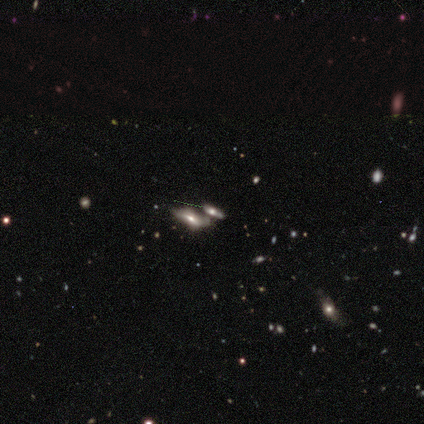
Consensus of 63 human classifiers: smooth 43%, featured or disk 41%, star or artifact 16%. Down the decision tree: how rounded — in between (70%); merging — merger (45%).